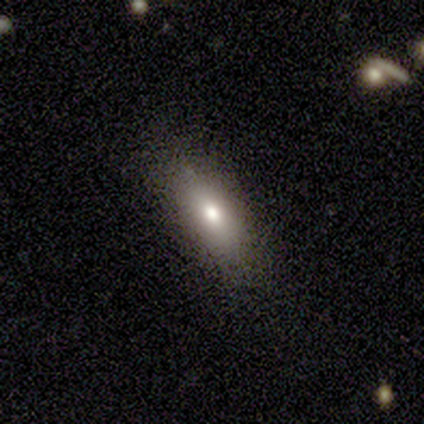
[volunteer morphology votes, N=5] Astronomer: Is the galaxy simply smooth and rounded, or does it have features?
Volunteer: smooth — 80%.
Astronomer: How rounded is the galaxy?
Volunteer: in between — 75%.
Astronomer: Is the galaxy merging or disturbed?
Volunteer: none — 100%.